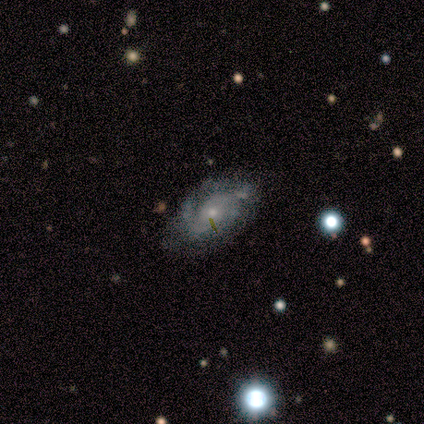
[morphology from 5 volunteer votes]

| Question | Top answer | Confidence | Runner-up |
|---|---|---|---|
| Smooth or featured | featured or disk | 100% | — |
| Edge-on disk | no | 100% | — |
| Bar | no | 80% | weak (20%) |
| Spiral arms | yes | 100% | — |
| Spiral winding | medium | 60% | tight (20%) |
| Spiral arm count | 2 | 80% | can't tell (20%) |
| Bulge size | moderate | 40% | tied: small (40%) |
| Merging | none | 100% | — |